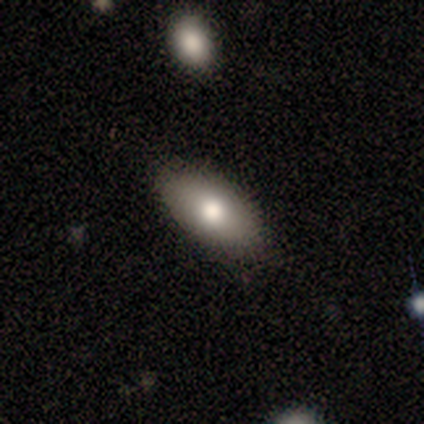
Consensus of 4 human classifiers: A smooth galaxy with no disk features (100%) that is in between round and cigar-shaped (100%).

Vote fractions:
- Smooth or featured? smooth: 100% / featured or disk: 0% / star or artifact: 0%
- How rounded? in between: 100% / round: 0% / cigar-shaped: 0%
- Merging? minor disturbance: 75% / none: 25% / major disturbance: 0% / merger: 0%